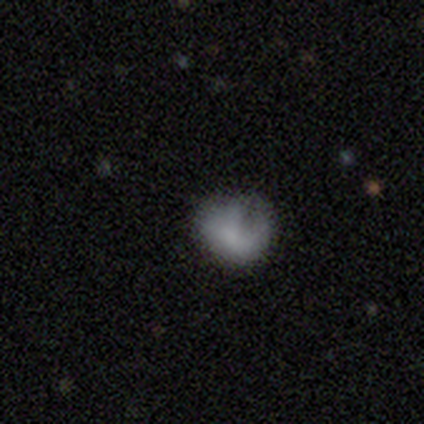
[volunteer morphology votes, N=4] smooth-or-featured: smooth: 100% | featured or disk: 0% | star or artifact: 0%
  how-rounded: round: 75% | in between: 25% | cigar-shaped: 0%
  merging: major disturbance: 50% | none: 25% | minor disturbance: 25% | merger: 0%